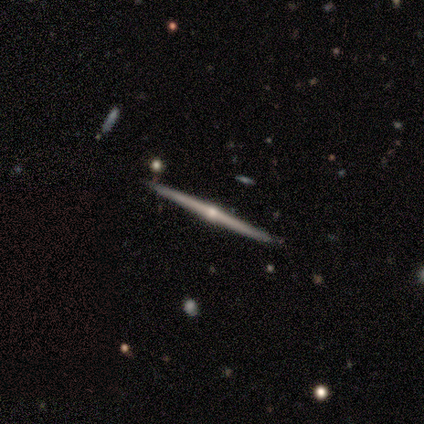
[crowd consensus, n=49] Q: Smooth or featured?
A: featured or disk (84%); runner-up: smooth (10%)
Q: Edge-on disk?
A: yes (98%); runner-up: no (2%)
Q: Edge-on bulge?
A: rounded (95%); runner-up: none (5%)
Q: Merging?
A: none (96%); runner-up: minor disturbance (2%)